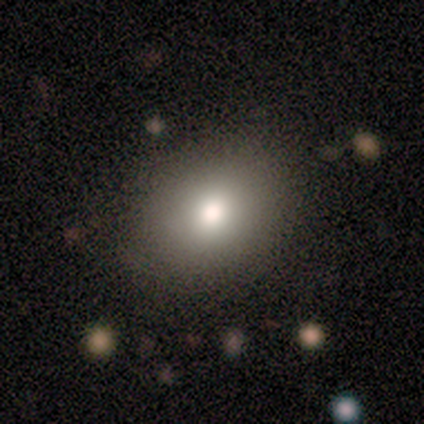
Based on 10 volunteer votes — This appears to be a smooth galaxy with no disk features (90%) that is in between round and cigar-shaped (67%). Merging: none (80%).